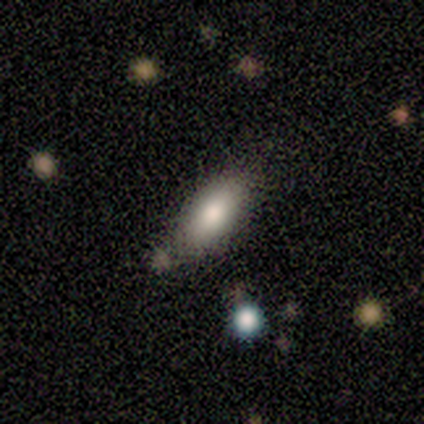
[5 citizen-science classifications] A smooth galaxy with no disk features (80%) that is in between round and cigar-shaped (75%). Merging: none (80%).